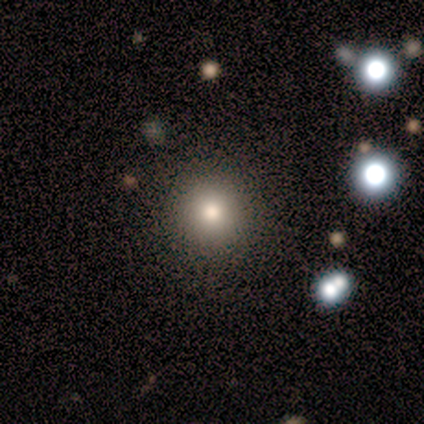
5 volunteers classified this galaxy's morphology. Smooth or featured: smooth — 60% (featured or disk — 20%)
How rounded: round — 100%
Merging: none — 75% (minor disturbance — 25%)